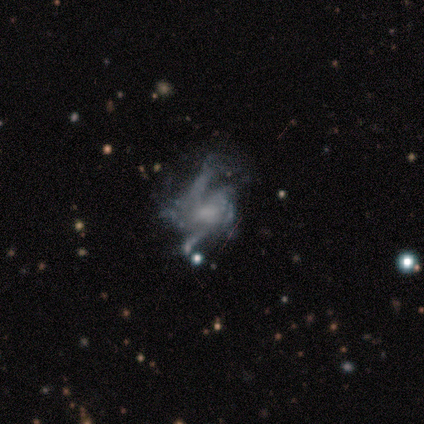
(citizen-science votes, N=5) A featured or disk galaxy (100%) with no bar (100%), 2 (33%, tied with 4 and can't tell) medium (67%) spiral arms (60%) and a small central bulge (80%). Merging: major disturbance (80%).